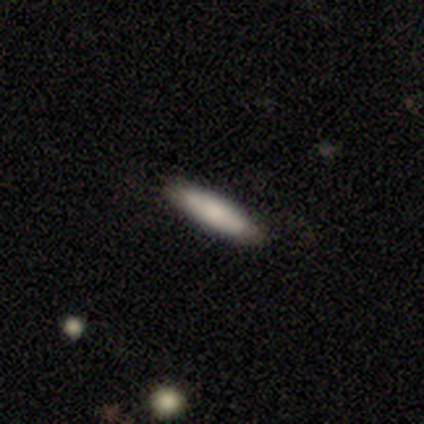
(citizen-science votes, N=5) Smooth or featured?
  - smooth: 100% *
  - featured or disk: 0%
  - star or artifact: 0%
How rounded?
  - cigar-shaped: 60% *
  - in between: 40%
  - round: 0%
Merging?
  - none: 100% *
  - minor disturbance: 0%
  - major disturbance: 0%
  - merger: 0%